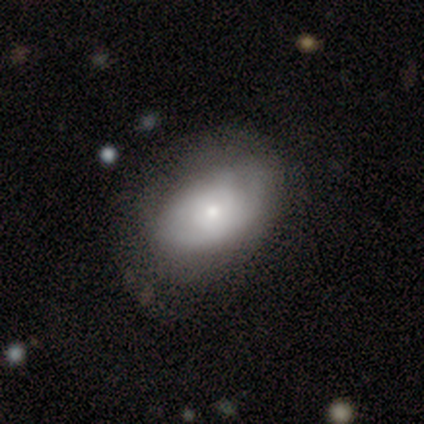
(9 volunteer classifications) Volunteers were most divided on "merging" (3-way tie): none: 33%, minor disturbance: 33%, major disturbance: 33%, merger: 0%. More confident: edge-on disk — no (100%); bar — no (100%); smooth or featured — featured or disk (89%); spiral arms — no (75%); bulge size — small (62%).